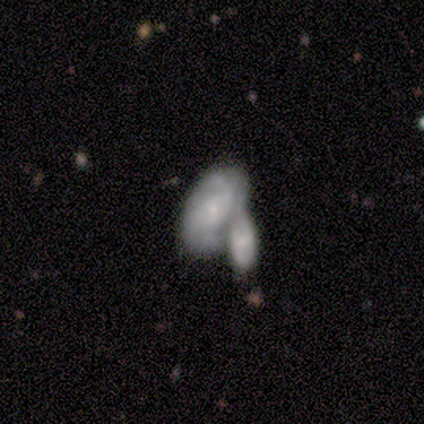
A featured or disk galaxy (75%) with a weak bar (67%), tight (33%, tied with medium and loose) spiral arms (100%) and a small central bulge (100%).

Vote fractions:
- Smooth or featured? featured or disk: 75% / smooth: 25% / star or artifact: 0%
- Edge-on disk? no: 100% / yes: 0%
- Bar? weak: 67% / no: 33% / strong: 0%
- Spiral arms? yes: 100% / no: 0%
- Spiral winding? tight: 33% (tied) / medium: 33% (tied) / loose: 33% (tied)
- Spiral arm count? can't tell: 67% / 2: 33% / 1: 0% / 3: 0% / 4: 0% / more than 4: 0%
- Bulge size? small: 100% / dominant: 0% / large: 0% / moderate: 0% / none: 0%
- Merging? merger: 75% / none: 25% / minor disturbance: 0% / major disturbance: 0%